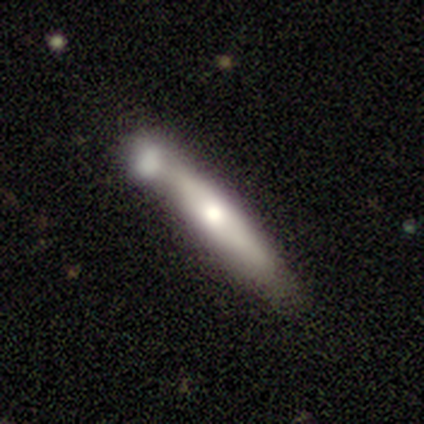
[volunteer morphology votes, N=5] smooth_or_featured: smooth (p=1.00)
how_rounded: cigar-shaped (p=0.80) [alt: in between p=0.20]
merging: none (p=0.60) [alt: minor disturbance p=0.20]